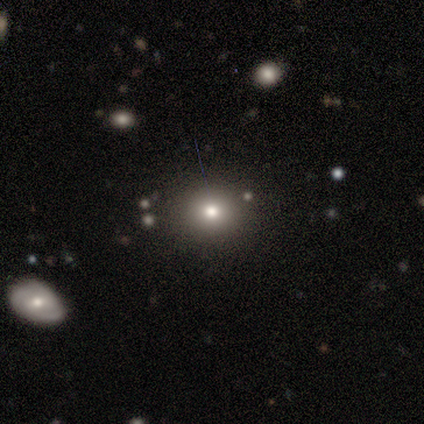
A smooth galaxy with no disk features (69%) that is round (73%).

Vote fractions:
- Smooth or featured? smooth: 69% / star or artifact: 16% / featured or disk: 15%
- How rounded? round: 73% / in between: 27% / cigar-shaped: 0%
- Merging? none: 55% / minor disturbance: 6% / merger: 3% / major disturbance: 0%